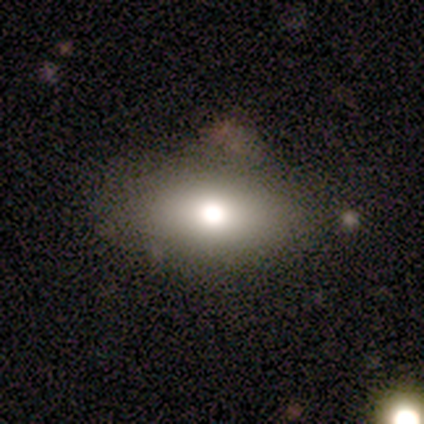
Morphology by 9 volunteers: A smooth galaxy with no disk features (89%) that is in between round and cigar-shaped (88%). Merging: none (78%).